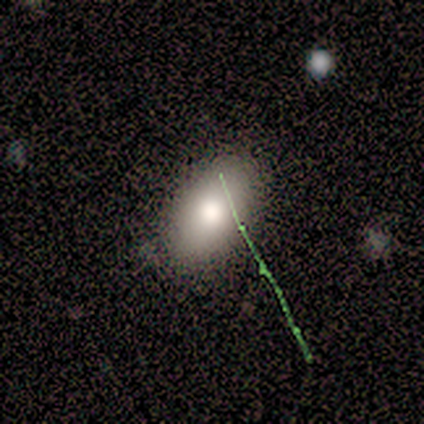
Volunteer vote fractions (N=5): A smooth galaxy with no disk features (80%) that is in between round and cigar-shaped (100%). Merging: none (100%).